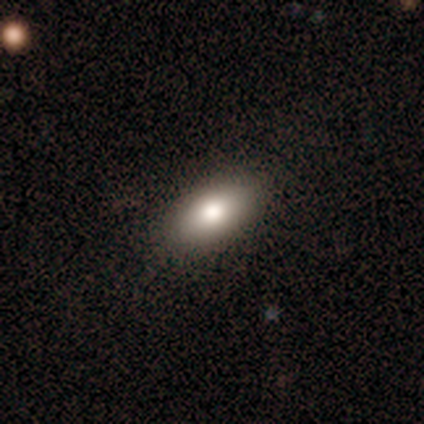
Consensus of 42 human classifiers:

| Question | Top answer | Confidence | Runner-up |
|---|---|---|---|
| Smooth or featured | smooth | 81% | featured or disk (14%) |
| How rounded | in between | 88% | cigar-shaped (9%) |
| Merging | none | 88% | minor disturbance (12%) |